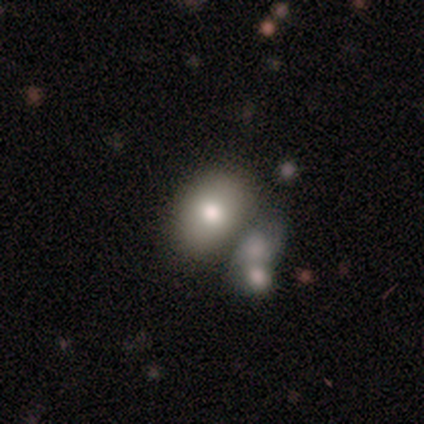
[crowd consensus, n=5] Q: Smooth or featured?
A: smooth (60%); runner-up: featured or disk (20%)
Q: How rounded?
A: round (67%); runner-up: in between (33%)
Q: Merging?
A: minor disturbance (50%); runner-up: none (25%)